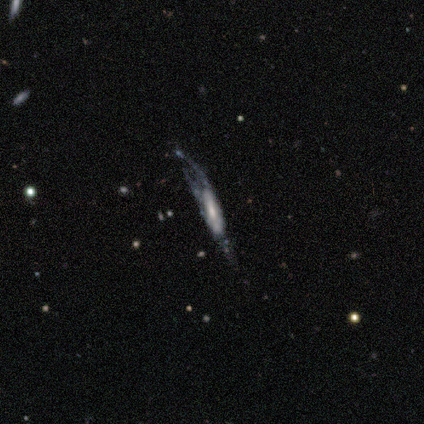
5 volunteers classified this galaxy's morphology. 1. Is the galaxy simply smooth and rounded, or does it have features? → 80% featured or disk, 20% smooth, 0% star or artifact.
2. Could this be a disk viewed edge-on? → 75% no, 25% yes.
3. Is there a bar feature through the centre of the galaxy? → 100% no, 0% strong, 0% weak.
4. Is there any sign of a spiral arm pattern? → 67% no, 33% yes.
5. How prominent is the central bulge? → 67% moderate, 33% none, 0% dominant, 0% large, 0% small.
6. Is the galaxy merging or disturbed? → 60% minor disturbance, 40% major disturbance, 0% none, 0% merger.